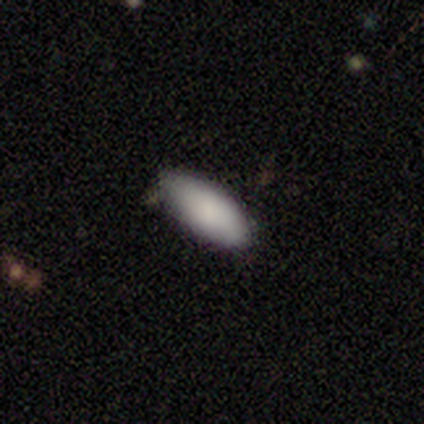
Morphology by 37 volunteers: smooth 89%, featured or disk 8%, star or artifact 3%. Down the decision tree: how rounded — in between (91%); merging — none (75%).